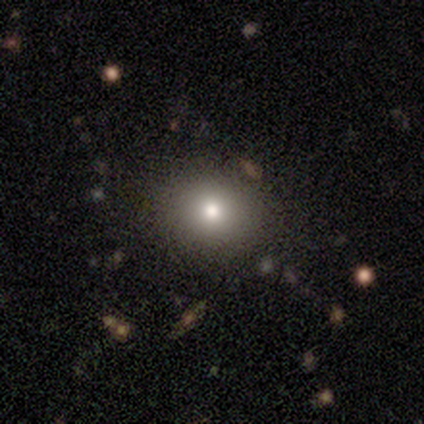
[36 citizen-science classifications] smooth-or-featured: smooth: 75% | star or artifact: 19% | featured or disk: 6%
  how-rounded: round: 89% | in between: 11% | cigar-shaped: 0%
  merging: none: 90% | minor disturbance: 10% | major disturbance: 0% | merger: 0%